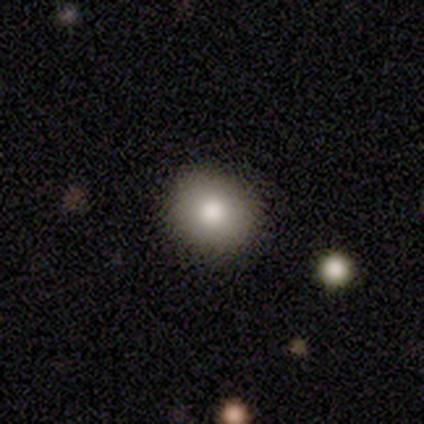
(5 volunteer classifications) Smooth or featured? 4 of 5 (80%) said smooth. How rounded? 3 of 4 (75%) said round. Merging? 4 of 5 (80%) said none.